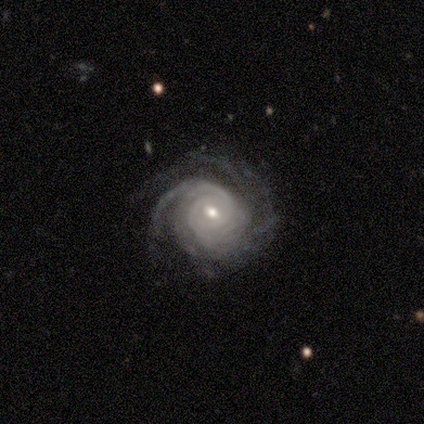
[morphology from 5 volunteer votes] Smooth or featured: featured or disk — 80% (star or artifact — 20%)
Edge-on disk: no — 100%
Bar: weak — 75% (no — 25%)
Spiral arms: yes — 100%
Spiral winding: tight — 100%
Spiral arm count: 2 — 50% (3 — 25%)
Bulge size: small — 75% (moderate — 25%)
Merging: none — 75% (major disturbance — 25%)